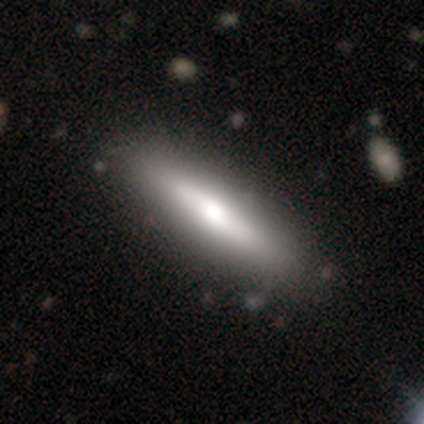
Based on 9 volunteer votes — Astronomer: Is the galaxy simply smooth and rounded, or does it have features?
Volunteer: smooth — 44%, tied with featured or disk at 44%.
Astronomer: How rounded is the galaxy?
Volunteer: cigar-shaped — 100%.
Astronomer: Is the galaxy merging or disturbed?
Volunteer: none — 88%.